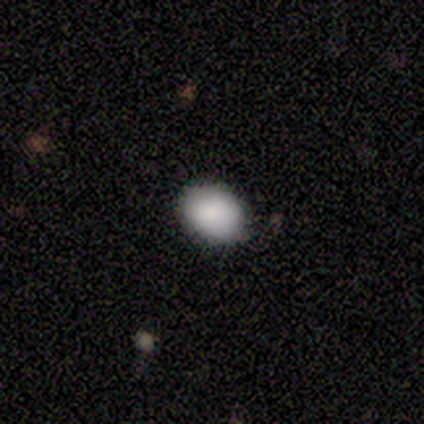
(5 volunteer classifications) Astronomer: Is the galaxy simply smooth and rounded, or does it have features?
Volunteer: smooth — 80%.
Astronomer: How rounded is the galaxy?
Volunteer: in between — 75%.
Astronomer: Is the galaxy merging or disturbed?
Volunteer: none — 100%.